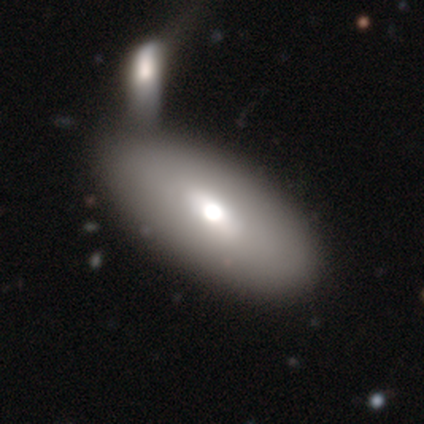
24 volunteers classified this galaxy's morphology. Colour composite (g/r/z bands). It shows a smooth galaxy with no disk features (67%) that is in between round and cigar-shaped (88%). Merging: merger (52%).